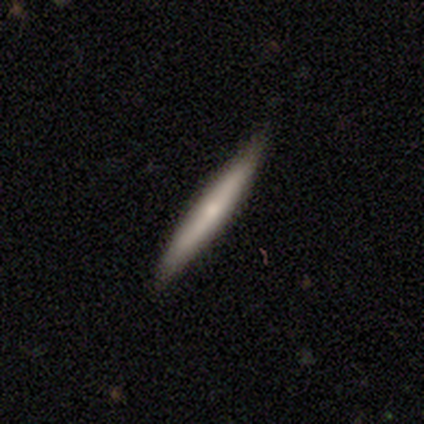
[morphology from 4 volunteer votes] Smooth or featured? smooth (50%)
How rounded? cigar-shaped (100%)
Merging? none (100%)